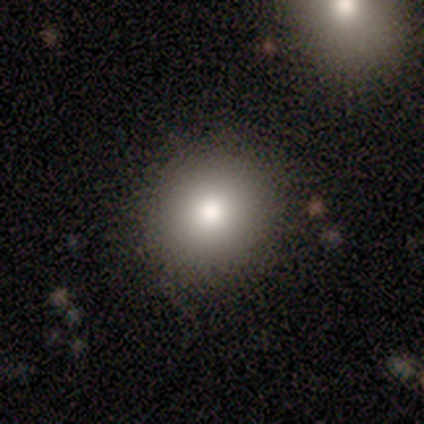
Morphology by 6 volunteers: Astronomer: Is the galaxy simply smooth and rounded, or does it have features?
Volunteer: smooth — 100%.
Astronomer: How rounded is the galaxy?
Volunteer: round — 100%.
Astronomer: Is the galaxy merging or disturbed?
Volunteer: none — 100%.